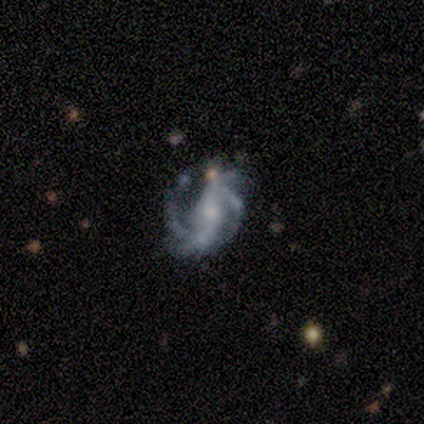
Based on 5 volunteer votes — Smooth or featured: featured or disk — 100%
Edge-on disk: no — 100%
Bar: no — 60% (strong — 20%)
Spiral arms: yes — 100%
Spiral winding: tight — 40% (tied with loose — 40%)
Spiral arm count: 2 — 40% (tied with 4 — 40%)
Bulge size: moderate — 60% (small — 20%)
Merging: minor disturbance — 80% (none — 20%)